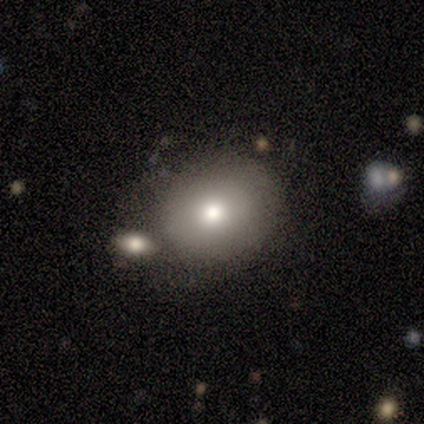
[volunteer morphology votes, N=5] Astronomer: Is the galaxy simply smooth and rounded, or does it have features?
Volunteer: smooth — 80%.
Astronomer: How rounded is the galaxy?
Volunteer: in between — 100%.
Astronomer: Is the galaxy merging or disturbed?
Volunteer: none — 50%, tied with minor disturbance at 50%.